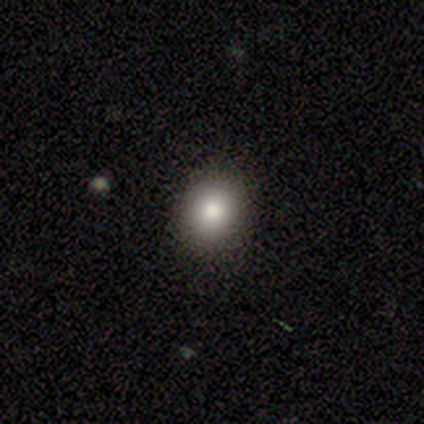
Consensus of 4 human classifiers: Q: Smooth or featured?
A: smooth (50%); tied with: star or artifact (50%)
Q: How rounded?
A: round (50%); tied with: in between (50%)
Q: Merging?
A: none (100%)